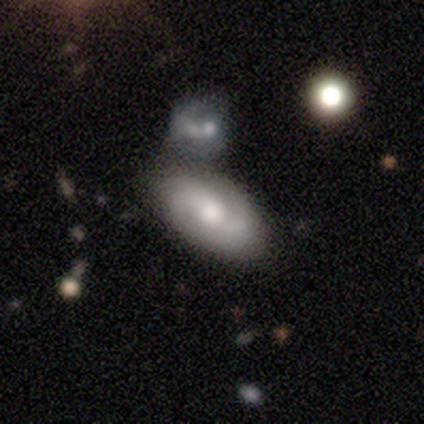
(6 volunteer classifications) smooth_or_featured: featured or disk (p=1.00)
disk_edge_on: no (p=1.00)
bar: no (p=0.67) [alt: weak p=0.33]
has_spiral_arms: yes (p=1.00)
spiral_winding: medium (p=0.67) [alt: loose p=0.33]
spiral_arm_count: 2 (p=0.50) [tied with: can't tell p=0.50]
bulge_size: moderate (p=1.00)
merging: merger (p=0.67) [alt: none p=0.33]